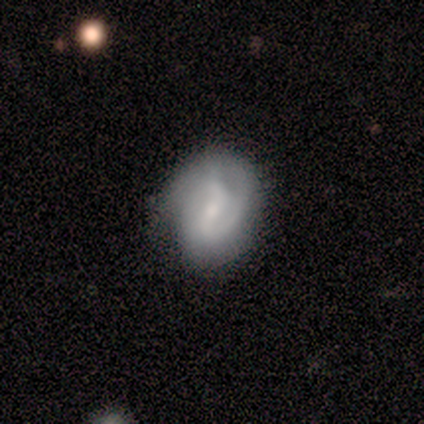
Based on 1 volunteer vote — A smooth galaxy with no disk features (100%) that is round (100%).

Vote fractions:
- Smooth or featured? smooth: 100% / featured or disk: 0% / star or artifact: 0%
- How rounded? round: 100% / in between: 0% / cigar-shaped: 0%
- Merging? minor disturbance: 100% / none: 0% / major disturbance: 0% / merger: 0%